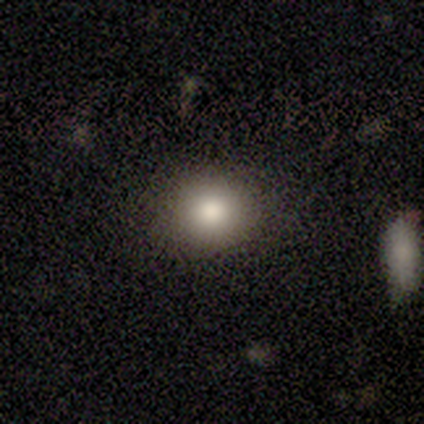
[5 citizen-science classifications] This is clearly a smooth galaxy (100%). How rounded: likely round (60%). Merging: clearly none (80%).